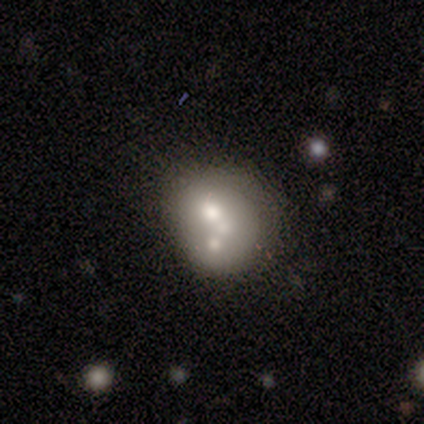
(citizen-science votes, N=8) Smooth or featured?
  - smooth: 50% *
  - featured or disk: 38%
  - star or artifact: 12%
How rounded?
  - round: 100% *
  - in between: 0%
  - cigar-shaped: 0%
Merging?
  - merger: 86% *
  - minor disturbance: 14%
  - none: 0%
  - major disturbance: 0%